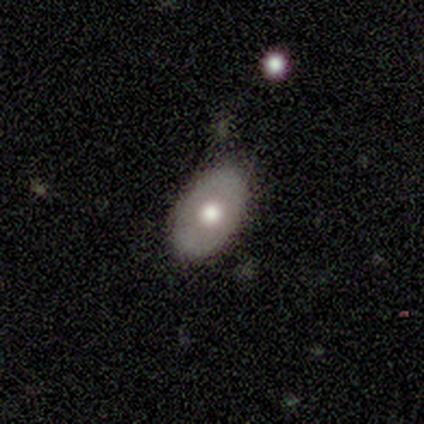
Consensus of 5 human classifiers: Smooth or featured? smooth (60%)
How rounded? in between (100%)
Merging? none (80%)